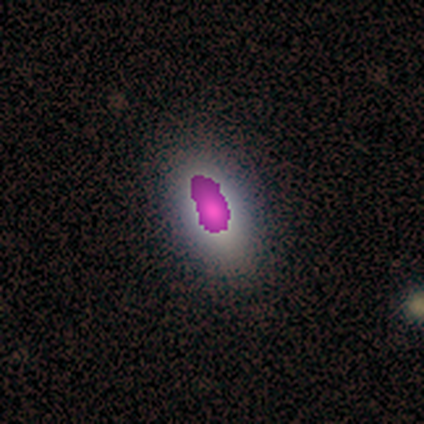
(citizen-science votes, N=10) This appears to be a smooth galaxy with no disk features (70%) that is in between round and cigar-shaped (86%). Merging: none (100%).